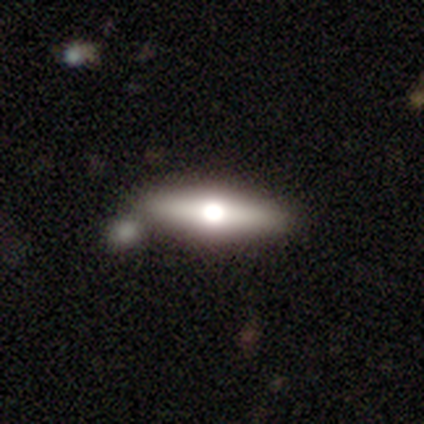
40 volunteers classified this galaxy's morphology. This is possibly a featured or disk galaxy (50%). It is clearly viewed edge-on (95%). Edge-on bulge: clearly rounded (100%). Merging: clearly none (81%).